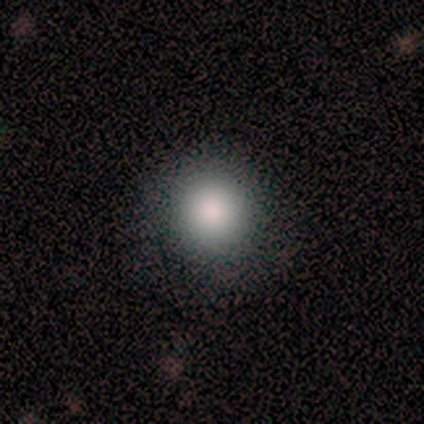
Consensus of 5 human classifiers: smooth_or_featured: smooth (p=0.80) [alt: featured or disk p=0.20]
how_rounded: round (p=1.00)
merging: none (p=0.80) [alt: minor disturbance p=0.20]